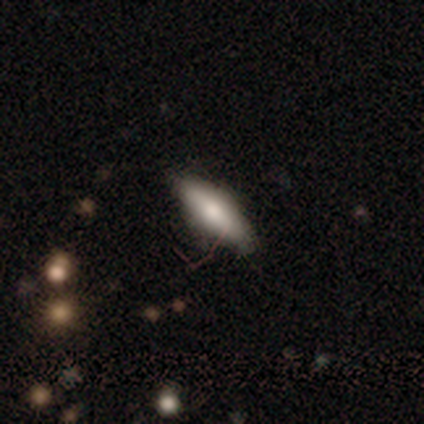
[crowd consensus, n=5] Morphology: type=smooth (80%); roundness=in between (75%); merging=none (100%).